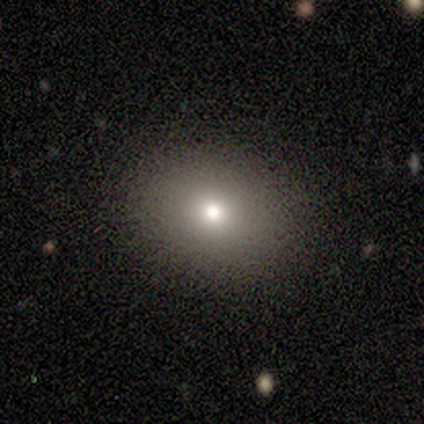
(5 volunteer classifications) Morphology: type=smooth (60%); roundness=round (100%); merging=none (100%).